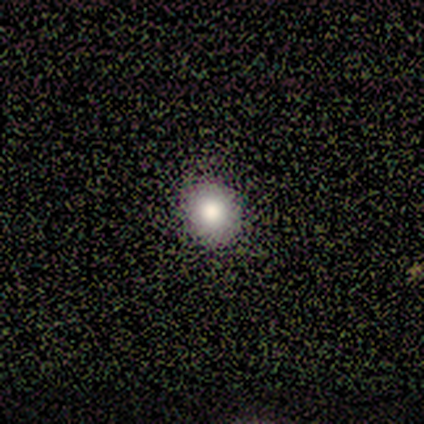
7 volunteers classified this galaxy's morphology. A smooth galaxy with no disk features (100%) that is round (100%). Merging: none (100%).